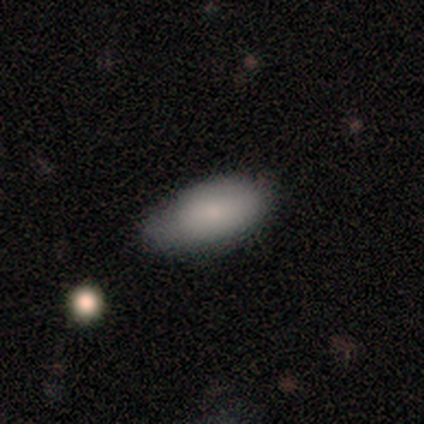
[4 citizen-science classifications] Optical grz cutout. It shows a smooth galaxy with no disk features (100%) that is in between round and cigar-shaped (100%). Merging: none (50%, tied with minor disturbance).